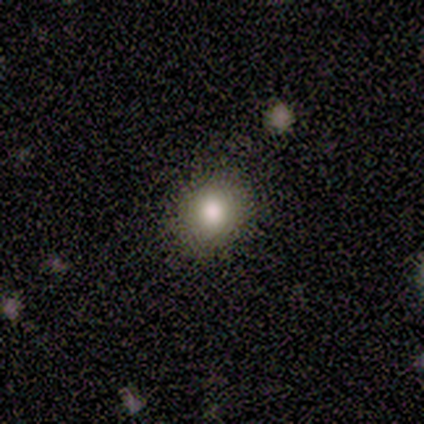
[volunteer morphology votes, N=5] A smooth galaxy with no disk features (100%) that is round (80%).

Vote fractions:
- Smooth or featured? smooth: 100% / featured or disk: 0% / star or artifact: 0%
- How rounded? round: 80% / in between: 20% / cigar-shaped: 0%
- Merging? none: 100% / minor disturbance: 0% / major disturbance: 0% / merger: 0%